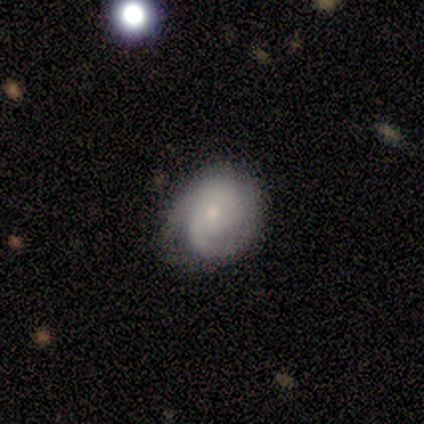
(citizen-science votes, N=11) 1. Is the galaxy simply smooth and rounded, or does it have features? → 82% featured or disk, 18% smooth, 0% star or artifact.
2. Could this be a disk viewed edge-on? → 100% no, 0% yes.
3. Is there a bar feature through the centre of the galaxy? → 89% no, 11% weak, 0% strong.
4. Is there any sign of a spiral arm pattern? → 100% yes, 0% no.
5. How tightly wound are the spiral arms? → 56% tight, 44% medium, 0% loose.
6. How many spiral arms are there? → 44% 3, 22% 2, 22% can't tell, 11% 1, 0% 4, 0% more than 4.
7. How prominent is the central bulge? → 78% small, 22% moderate, 0% dominant, 0% large, 0% none.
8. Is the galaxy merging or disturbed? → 73% none, 27% minor disturbance, 0% major disturbance, 0% merger.